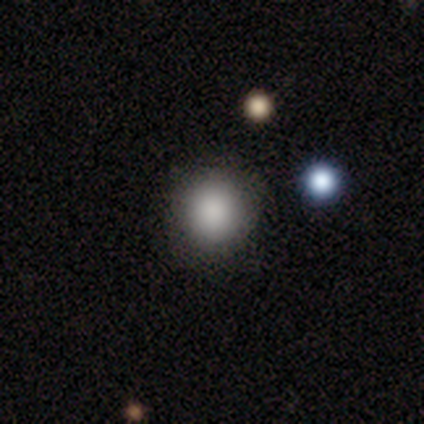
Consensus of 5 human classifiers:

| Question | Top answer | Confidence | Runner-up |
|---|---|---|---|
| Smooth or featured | smooth | 80% | star or artifact (20%) |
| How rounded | round | 75% | in between (25%) |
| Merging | none | 100% | — |